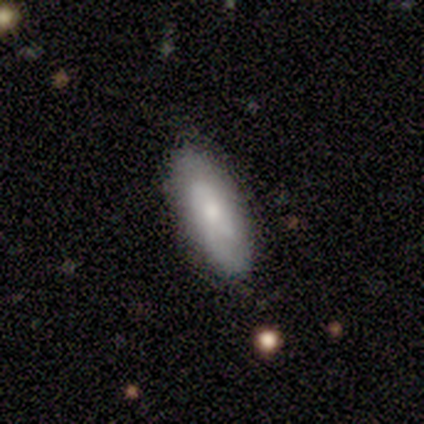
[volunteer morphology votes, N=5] Overall: smooth (60%; featured or disk 20%). How rounded: in between (67%; cigar-shaped 33%). Merging: none (100%).